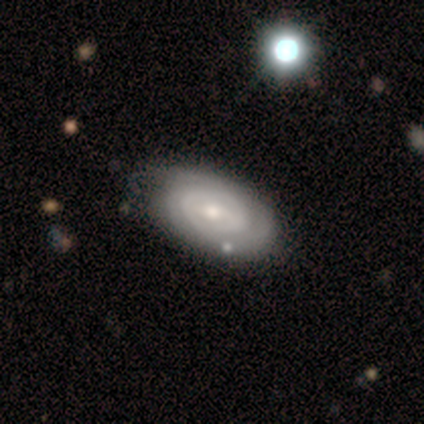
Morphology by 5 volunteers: Smooth or featured?
  - featured or disk: 80% *
  - smooth: 20%
  - star or artifact: 0%
Edge-on disk?
  - no: 100% *
  - yes: 0%
Bar?
  - no: 75% *
  - weak: 25%
  - strong: 0%
Spiral arms?
  - yes: 100% *
  - no: 0%
Spiral winding?
  - tight: 75% *
  - medium: 25%
  - loose: 0%
Spiral arm count?
  - can't tell: 100% *
  - 1: 0%
  - 2: 0%
  - 3: 0%
  - 4: 0%
  - more than 4: 0%
Bulge size?
  - small: 75% *
  - moderate: 25%
  - dominant: 0%
  - large: 0%
  - none: 0%
Merging?
  - none: 60% *
  - minor disturbance: 40%
  - major disturbance: 0%
  - merger: 0%